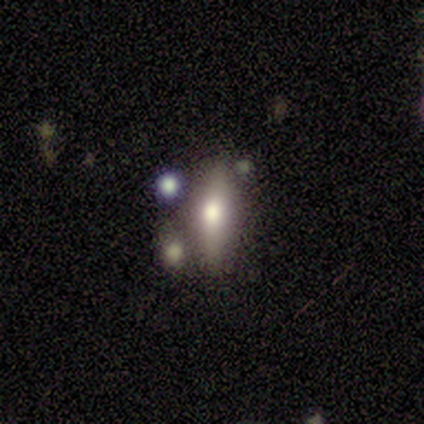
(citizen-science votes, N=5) Volunteers were most divided on "smooth or featured" (2-way tie): smooth: 40%, featured or disk: 40%, star or artifact: 20%; "how rounded" (2-way tie): in between: 50%, cigar-shaped: 50%, round: 0%. More confident: merging — none (50%).